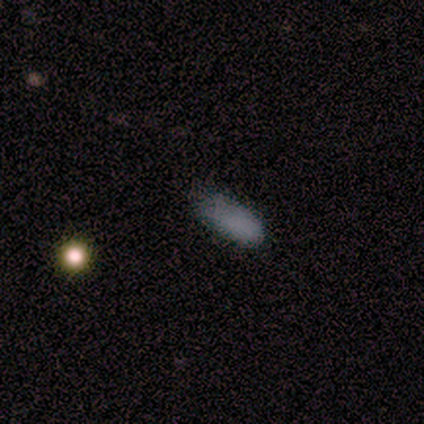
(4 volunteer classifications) smooth_or_featured: smooth (p=0.50) [tied with: featured or disk p=0.50]
how_rounded: in between (p=1.00)
merging: none (p=0.50) [tied with: minor disturbance p=0.50]